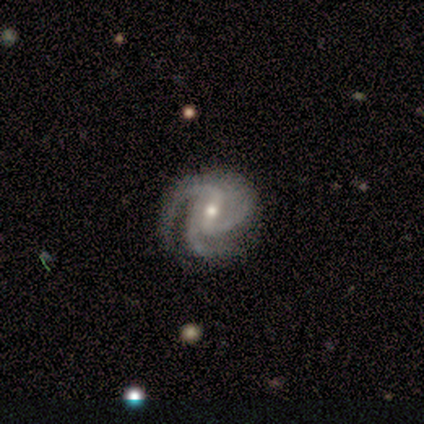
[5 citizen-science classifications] Smooth or featured?
  - featured or disk: 100% *
  - smooth: 0%
  - star or artifact: 0%
Edge-on disk?
  - no: 100% *
  - yes: 0%
Bar?
  - weak: 40% * (tied)
  - no: 40% * (tied)
  - strong: 20%
Spiral arms?
  - yes: 100% *
  - no: 0%
Spiral winding?
  - tight: 100% *
  - medium: 0%
  - loose: 0%
Spiral arm count?
  - 3: 80% *
  - 2: 20%
  - 1: 0%
  - 4: 0%
  - more than 4: 0%
  - can't tell: 0%
Bulge size?
  - small: 60% *
  - moderate: 40%
  - dominant: 0%
  - large: 0%
  - none: 0%
Merging?
  - none: 100% *
  - minor disturbance: 0%
  - major disturbance: 0%
  - merger: 0%